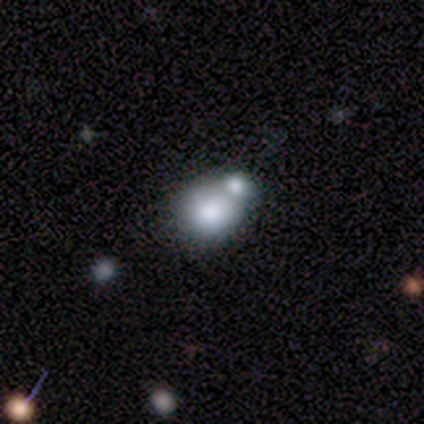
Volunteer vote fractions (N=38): smooth 68%, featured or disk 16%, star or artifact 16%. Down the decision tree: how rounded — round (54%); merging — merger (62%).